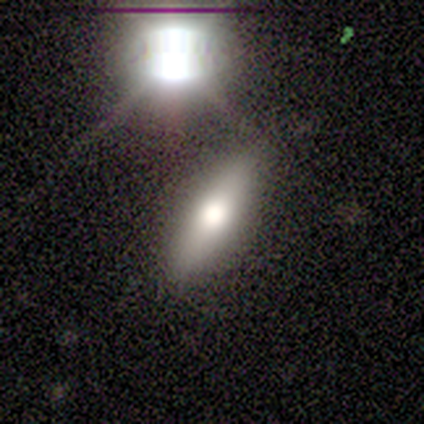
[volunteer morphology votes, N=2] This appears to be a smooth galaxy with no disk features (50%, tied with featured or disk) that is in between round and cigar-shaped (100%). Merging: none (50%, tied with minor disturbance).